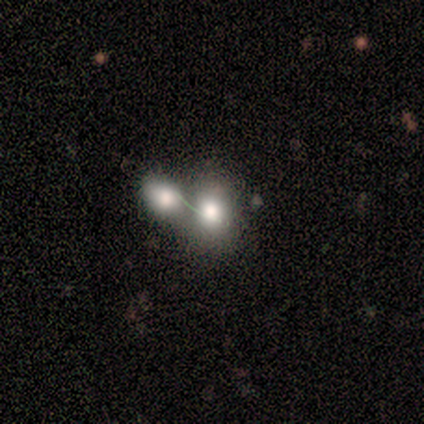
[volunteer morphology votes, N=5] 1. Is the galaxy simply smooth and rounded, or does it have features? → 100% smooth, 0% featured or disk, 0% star or artifact.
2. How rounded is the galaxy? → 80% round, 20% in between, 0% cigar-shaped.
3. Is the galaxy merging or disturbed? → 100% merger, 0% none, 0% minor disturbance, 0% major disturbance.